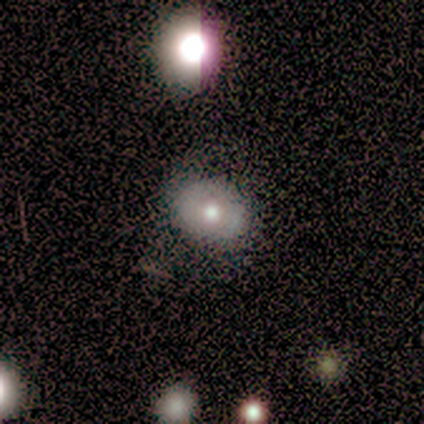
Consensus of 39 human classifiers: Overall: smooth (59%; featured or disk 26%). How rounded: in between (52%; round 48%). Merging: none (64%).